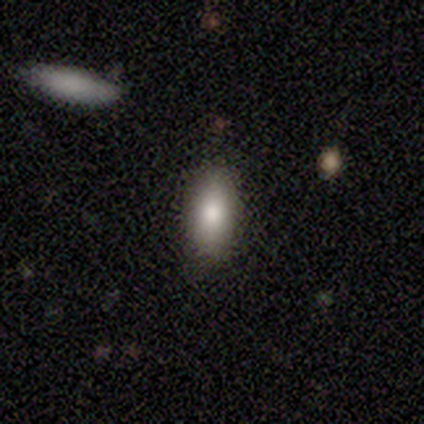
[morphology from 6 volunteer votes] smooth_or_featured: smooth (p=0.67) [alt: featured or disk p=0.33]
how_rounded: in between (p=0.75) [alt: cigar-shaped p=0.25]
merging: none (p=1.00)